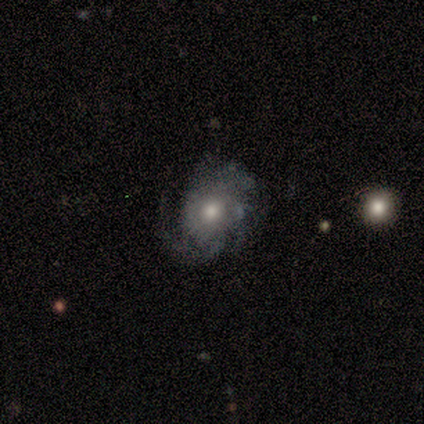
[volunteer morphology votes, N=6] This appears to be a featured or disk galaxy (67%) with no bar (100%), tight (50%) spiral arms (100%) and a moderate central bulge (75%). Merging: none (67%).